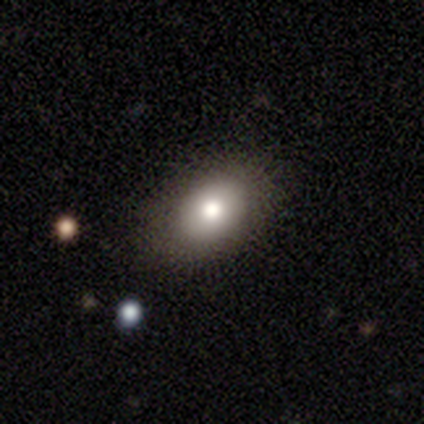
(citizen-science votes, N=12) Smooth or featured?
  - smooth: 75% *
  - featured or disk: 17%
  - star or artifact: 8%
How rounded?
  - in between: 100% *
  - round: 0%
  - cigar-shaped: 0%
Merging?
  - none: 91% *
  - minor disturbance: 9%
  - major disturbance: 0%
  - merger: 0%